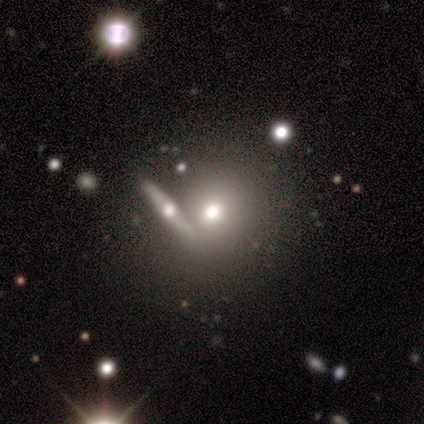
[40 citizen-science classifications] A smooth galaxy with no disk features (62%) that is round (80%).

Vote fractions:
- Smooth or featured? smooth: 62% / featured or disk: 28% / star or artifact: 10%
- How rounded? round: 80% / cigar-shaped: 12% / in between: 8%
- Merging? none: 75% / merger: 14% / minor disturbance: 6% / major disturbance: 6%